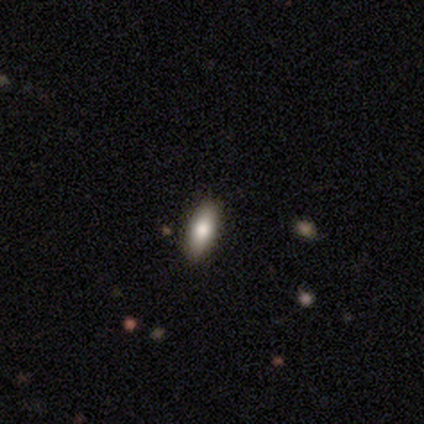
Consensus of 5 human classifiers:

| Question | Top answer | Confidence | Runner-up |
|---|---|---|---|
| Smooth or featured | smooth | 80% | featured or disk (20%) |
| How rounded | in between | 100% | — |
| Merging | none | 100% | — |